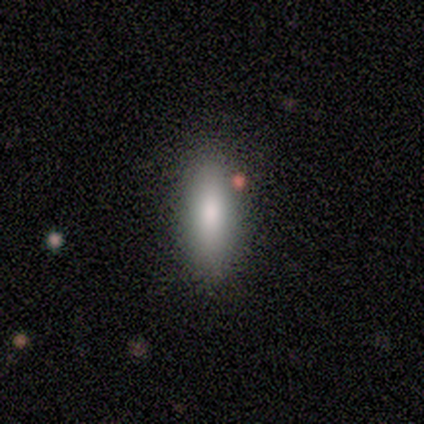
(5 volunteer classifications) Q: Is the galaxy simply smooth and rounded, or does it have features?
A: smooth — 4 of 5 (80%).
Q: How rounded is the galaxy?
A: cigar-shaped — 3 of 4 (75%).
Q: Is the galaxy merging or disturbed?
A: none — 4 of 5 (80%).